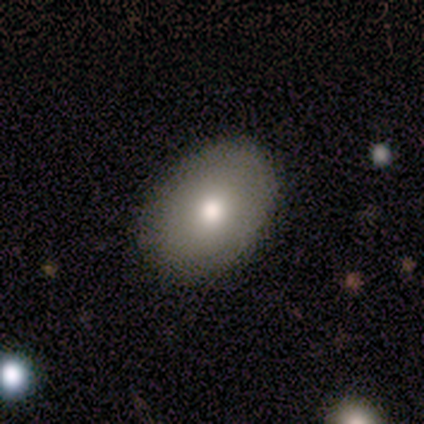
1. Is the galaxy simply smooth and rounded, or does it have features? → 79% smooth, 21% featured or disk, 0% star or artifact.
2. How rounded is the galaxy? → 80% in between, 20% round, 0% cigar-shaped.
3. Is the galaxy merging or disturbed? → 89% none, 5% minor disturbance, 5% major disturbance, 0% merger.